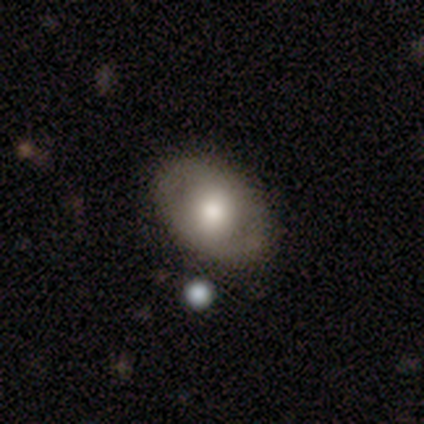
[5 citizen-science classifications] This appears to be a smooth galaxy with no disk features (60%) that is in between round and cigar-shaped (100%). Merging: none (75%).